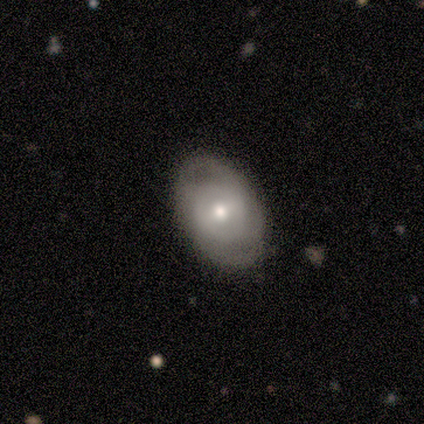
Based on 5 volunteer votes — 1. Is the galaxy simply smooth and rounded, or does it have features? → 80% featured or disk, 20% smooth, 0% star or artifact.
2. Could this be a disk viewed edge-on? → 100% no, 0% yes.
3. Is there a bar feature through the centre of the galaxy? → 50% weak (tied), 50% no (tied), 0% strong.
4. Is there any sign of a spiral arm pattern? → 75% yes, 25% no.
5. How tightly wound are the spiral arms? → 67% medium, 33% tight, 0% loose.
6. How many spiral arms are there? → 67% 2, 33% can't tell, 0% 1, 0% 3, 0% 4, 0% more than 4.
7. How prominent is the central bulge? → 75% small, 25% moderate, 0% dominant, 0% large, 0% none.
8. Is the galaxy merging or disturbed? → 100% none, 0% minor disturbance, 0% major disturbance, 0% merger.